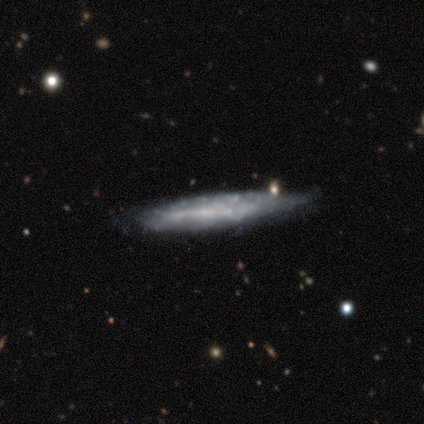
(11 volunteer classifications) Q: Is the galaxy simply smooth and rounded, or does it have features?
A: featured or disk — 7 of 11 (64%).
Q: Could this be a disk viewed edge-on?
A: yes — 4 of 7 (57%).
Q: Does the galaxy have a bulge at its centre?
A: none — 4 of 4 (100%).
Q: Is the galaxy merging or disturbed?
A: none — 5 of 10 (50%, tied with minor disturbance).